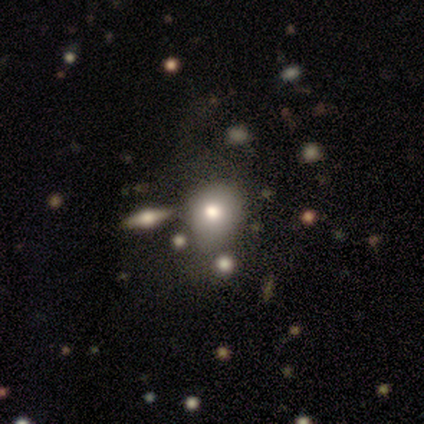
Smooth or featured? smooth (40%, tied with featured or disk)
How rounded? round (50%, tied with in between)
Merging? none (100%)